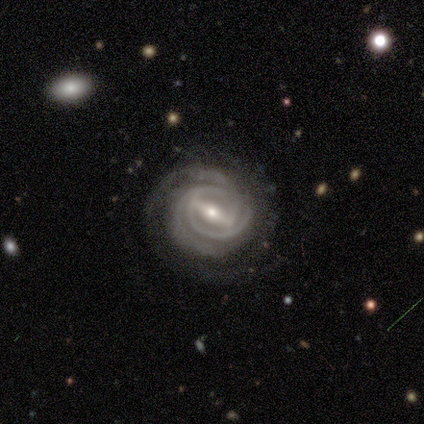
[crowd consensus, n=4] Smooth or featured? 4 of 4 (100%) said featured or disk. Edge-on disk? 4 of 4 (100%) said no. Bar? 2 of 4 (50%, tied with weak) said strong. Spiral arms? 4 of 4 (100%) said yes. Spiral winding? 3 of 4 (75%) said tight. Spiral arm count? 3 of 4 (75%) said 3. Bulge size? 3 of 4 (75%) said small. Merging? 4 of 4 (100%) said none.